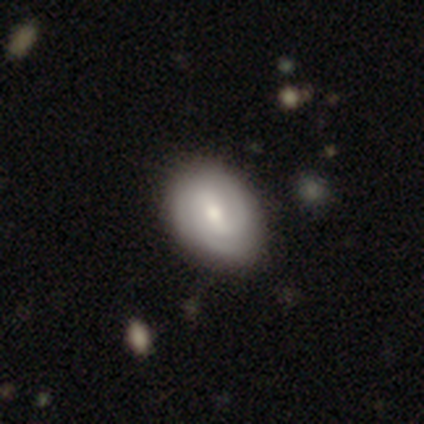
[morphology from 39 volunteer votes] Smooth or featured? 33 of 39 (85%) said featured or disk. Edge-on disk? 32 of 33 (97%) said no. Bar? 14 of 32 (44%) said weak. Spiral arms? 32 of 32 (100%) said yes. Spiral winding? 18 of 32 (56%) said tight. Spiral arm count? 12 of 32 (38%) said 2. Bulge size? 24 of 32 (75%) said moderate. Merging? 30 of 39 (77%) said none.